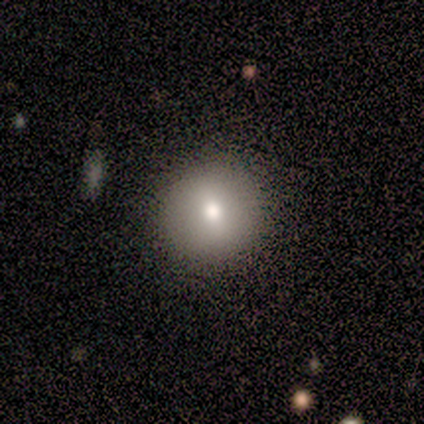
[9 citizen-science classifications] Smooth or featured? smooth (89%)
How rounded? round (100%)
Merging? none (78%)